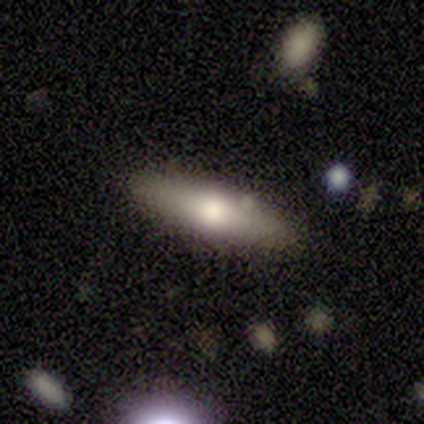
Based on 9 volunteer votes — A smooth galaxy with no disk features (67%) that is cigar-shaped (67%).

Vote fractions:
- Smooth or featured? smooth: 67% / featured or disk: 33% / star or artifact: 0%
- How rounded? cigar-shaped: 67% / in between: 33% / round: 0%
- Merging? none: 67% / minor disturbance: 33% / major disturbance: 0% / merger: 0%